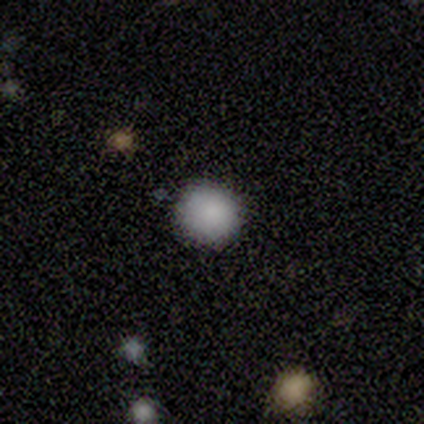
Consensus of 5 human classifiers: smooth 100%, featured or disk 0%, star or artifact 0%. Down the decision tree: how rounded — round (100%); merging — none (100%).